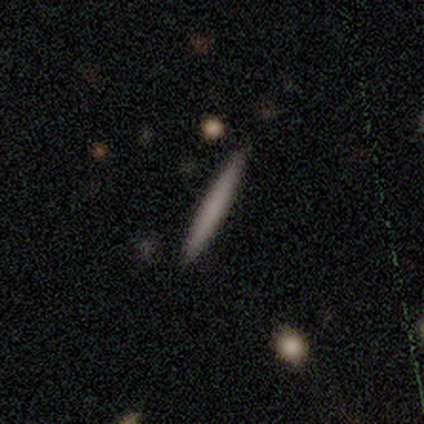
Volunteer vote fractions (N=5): This appears to be a smooth galaxy with no disk features (100%) that is cigar-shaped (100%). Merging: none (100%).